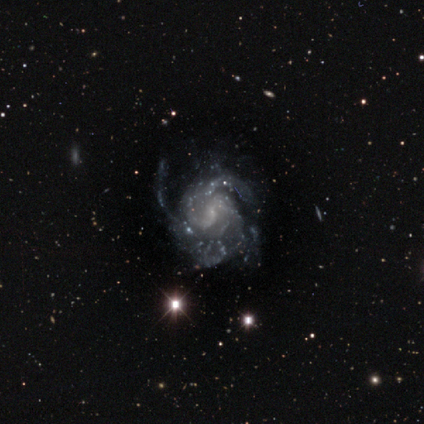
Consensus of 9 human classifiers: Smooth or featured? 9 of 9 (100%) said featured or disk. Edge-on disk? 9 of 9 (100%) said no. Bar? 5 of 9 (56%) said no. Spiral arms? 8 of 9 (89%) said yes. Spiral winding? 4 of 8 (50%) said tight. Spiral arm count? 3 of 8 (38%, tied with 3) said 2. Bulge size? 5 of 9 (56%) said small. Merging? 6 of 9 (67%) said none.